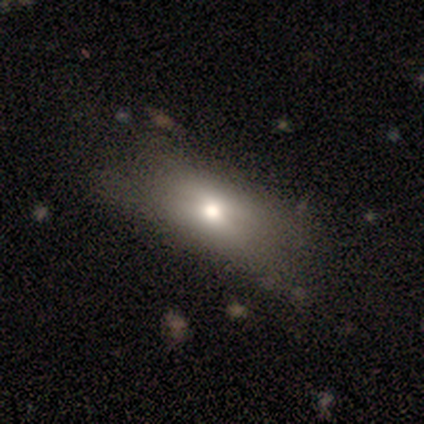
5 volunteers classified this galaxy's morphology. smooth-or-featured: smooth: 40% (tied) | featured or disk: 40% (tied) | star or artifact: 20%
  how-rounded: round: 50% (tied) | in between: 50% (tied) | cigar-shaped: 0%
  merging: none: 50% | major disturbance: 25% | merger: 25% | minor disturbance: 0%